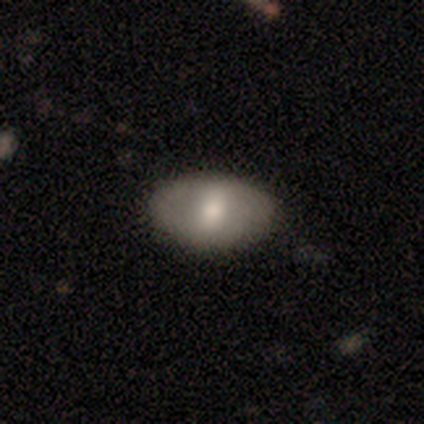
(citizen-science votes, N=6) A smooth galaxy with no disk features (50%, tied with featured or disk) that is in between round and cigar-shaped (100%).

Vote fractions:
- Smooth or featured? smooth: 50% (tied) / featured or disk: 50% (tied) / star or artifact: 0%
- How rounded? in between: 100% / round: 0% / cigar-shaped: 0%
- Merging? none: 83% / major disturbance: 17% / minor disturbance: 0% / merger: 0%